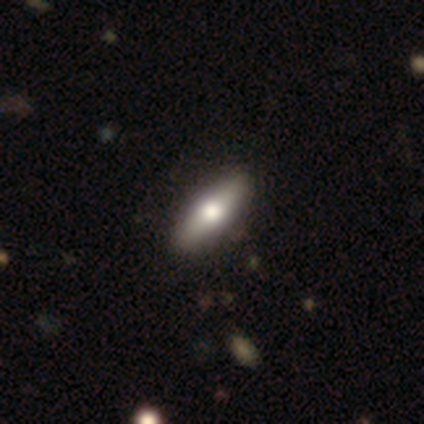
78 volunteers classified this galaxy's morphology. Smooth or featured? smooth (63%)
How rounded? in between (51%)
Merging? none (52%)